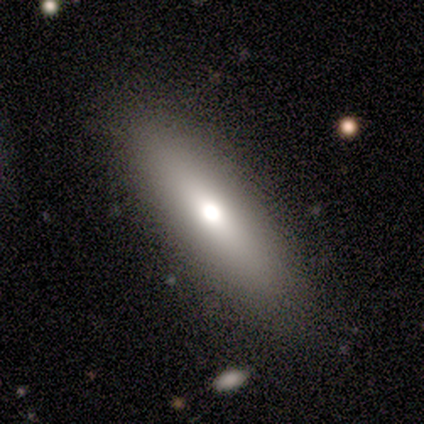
This is possibly a smooth galaxy (57%). How rounded: clearly cigar-shaped (100%). Merging: clearly none (100%).